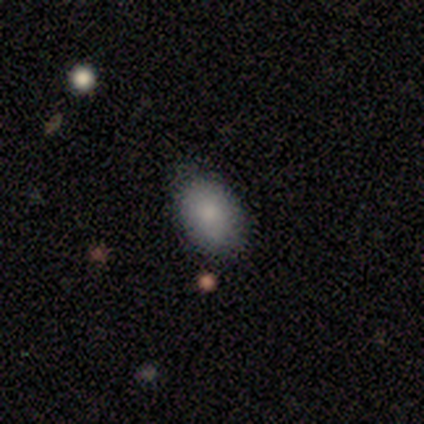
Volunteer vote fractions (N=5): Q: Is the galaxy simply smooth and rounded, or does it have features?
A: smooth — 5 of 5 (100%).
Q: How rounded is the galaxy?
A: in between — 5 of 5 (100%).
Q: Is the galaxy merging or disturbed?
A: none — 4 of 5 (80%).